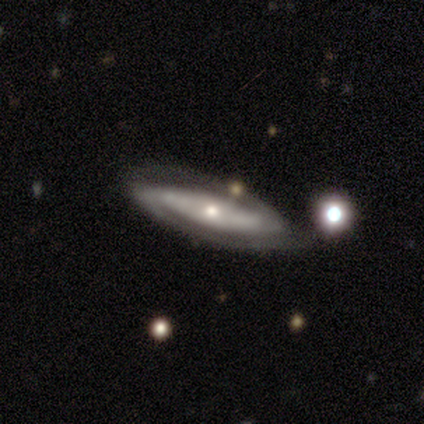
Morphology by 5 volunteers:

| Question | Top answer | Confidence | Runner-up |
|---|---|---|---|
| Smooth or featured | featured or disk | 100% | — |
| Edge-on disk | no | 100% | — |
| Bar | no | 80% | strong (20%) |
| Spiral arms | yes | 100% | — |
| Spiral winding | tight | 60% | medium (20%) |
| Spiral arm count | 2 | 100% | — |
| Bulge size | small | 60% | moderate (40%) |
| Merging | none | 100% | — |